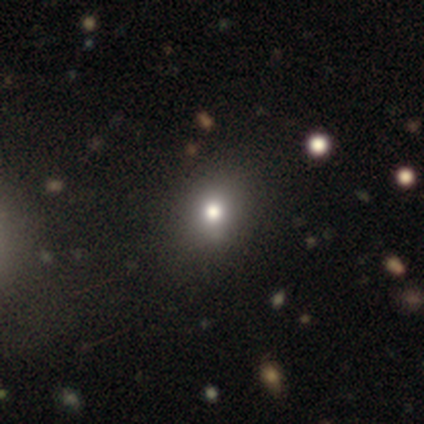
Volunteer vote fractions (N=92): Overall: smooth (64%; star or artifact 27%). How rounded: round (66%; in between 32%). Merging: none (82%).